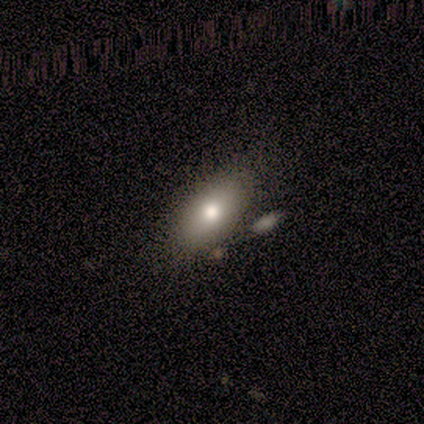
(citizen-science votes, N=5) A smooth galaxy with no disk features (100%) that is in between round and cigar-shaped (100%).

Vote fractions:
- Smooth or featured? smooth: 100% / featured or disk: 0% / star or artifact: 0%
- How rounded? in between: 100% / round: 0% / cigar-shaped: 0%
- Merging? none: 80% / merger: 20% / minor disturbance: 0% / major disturbance: 0%